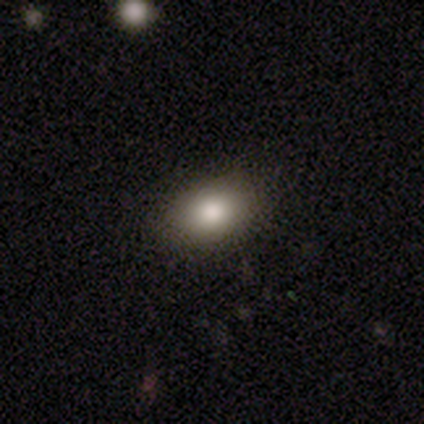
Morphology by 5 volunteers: Smooth or featured: smooth — 80% (featured or disk — 20%)
How rounded: in between — 100%
Merging: none — 100%